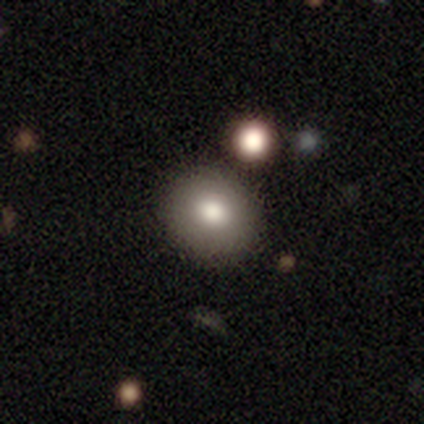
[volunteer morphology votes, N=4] This is likely a smooth galaxy (75%). How rounded: likely round (67%). Merging: clearly none (100%).